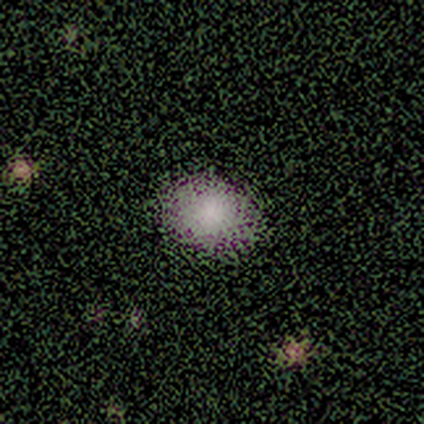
Morphology: type=smooth (100%); roundness=in between (60%); merging=none (100%).